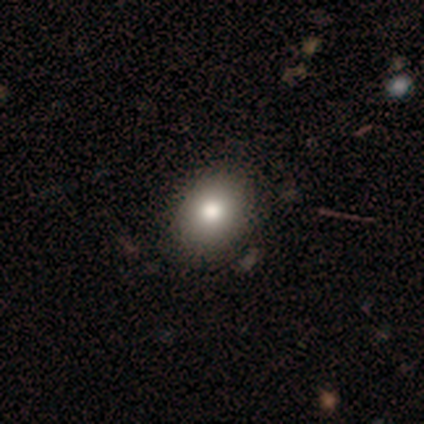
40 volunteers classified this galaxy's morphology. Volunteers were most divided on "how rounded" (2-way tie): round: 50%, in between: 50%, cigar-shaped: 0%. More confident: smooth or featured — smooth (85%); merging — none (64%).